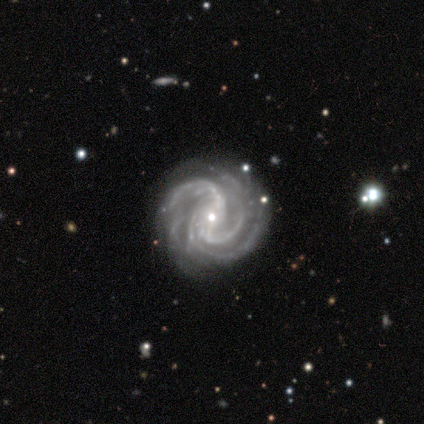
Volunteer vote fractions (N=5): Morphology: type=featured or disk (100%); edge-on=no (100%); bar=weak (60%); spiral arms=yes (100%); winding=medium (60%); arm count=3 (60%); bulge=small (60%); merging=none (80%).